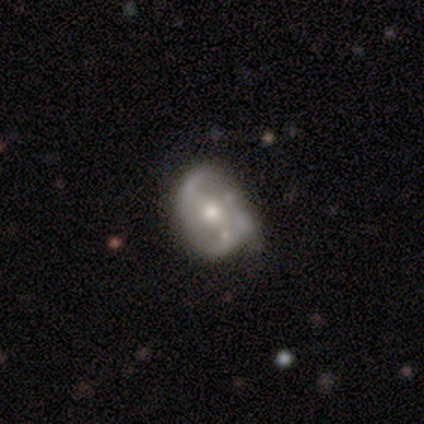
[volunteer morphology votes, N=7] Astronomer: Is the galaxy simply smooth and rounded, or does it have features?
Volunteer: featured or disk — 86%.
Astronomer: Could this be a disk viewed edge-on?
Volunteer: no — 100%.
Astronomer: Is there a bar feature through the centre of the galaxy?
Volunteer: weak — 50%, tied with no at 50%.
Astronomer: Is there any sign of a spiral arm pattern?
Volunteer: yes — 83%.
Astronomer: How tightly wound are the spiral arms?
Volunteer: medium — 60% (runner-up: tight, 40%).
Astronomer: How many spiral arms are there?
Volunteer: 2 — 40%, tied with can't tell at 40%.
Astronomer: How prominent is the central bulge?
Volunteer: moderate — 50%, tied with small at 50%.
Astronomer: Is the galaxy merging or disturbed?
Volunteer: none — 83%.